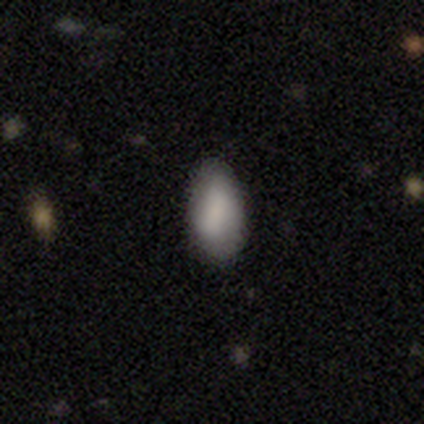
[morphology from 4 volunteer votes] A smooth galaxy with no disk features (75%) that is in between round and cigar-shaped (100%).

Vote fractions:
- Smooth or featured? smooth: 75% / featured or disk: 25% / star or artifact: 0%
- How rounded? in between: 100% / round: 0% / cigar-shaped: 0%
- Merging? none: 75% / minor disturbance: 25% / major disturbance: 0% / merger: 0%